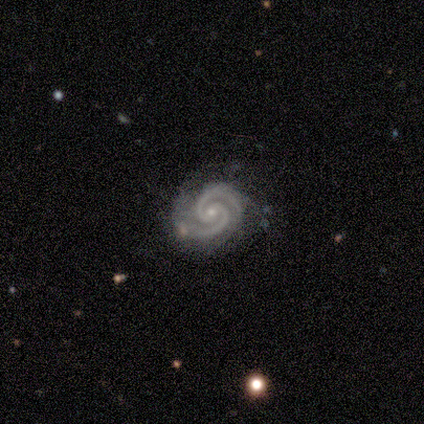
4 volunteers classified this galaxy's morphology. A featured or disk galaxy (100%) with a weak bar (50%), 2 (100%) tight (100%) spiral arms (100%) and a moderate central bulge (50%, tied with small). Merging: none (50%, tied with minor disturbance).